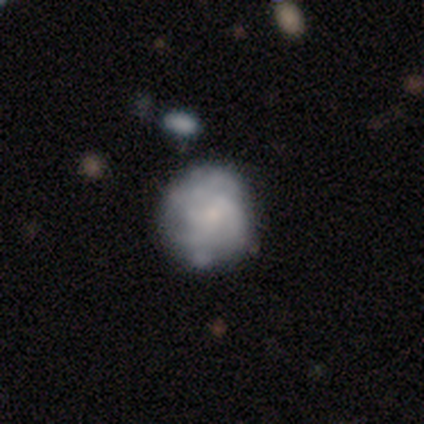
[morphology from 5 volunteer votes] smooth_or_featured: smooth (p=0.40) [tied with: star or artifact p=0.40]
how_rounded: round (p=1.00)
merging: none (p=0.67) [alt: major disturbance p=0.33]